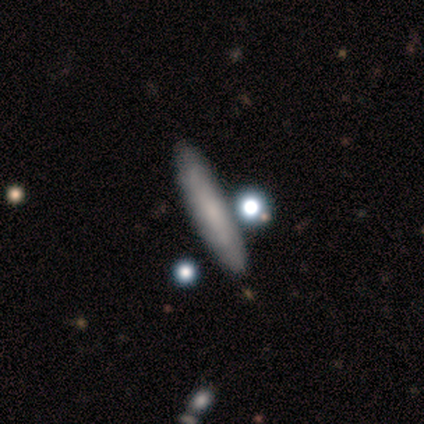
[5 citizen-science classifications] smooth-or-featured: featured or disk: 60% | smooth: 40% | star or artifact: 0%
  disk-edge-on: yes: 100% | no: 0%
    edge-on-bulge: none: 67% | rounded: 33% | boxy: 0%
  merging: none: 80% | merger: 20% | minor disturbance: 0% | major disturbance: 0%